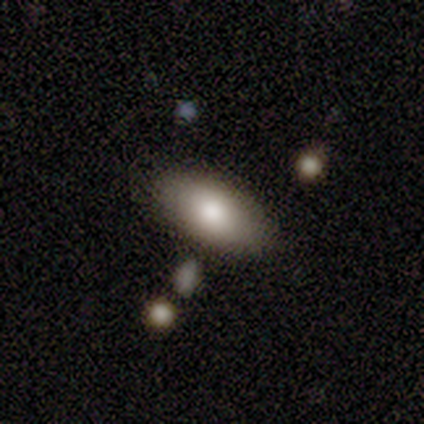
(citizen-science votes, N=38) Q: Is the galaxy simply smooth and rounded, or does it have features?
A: smooth — 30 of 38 (79%).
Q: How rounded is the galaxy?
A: in between — 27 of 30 (90%).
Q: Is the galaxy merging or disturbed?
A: none — 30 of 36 (83%).